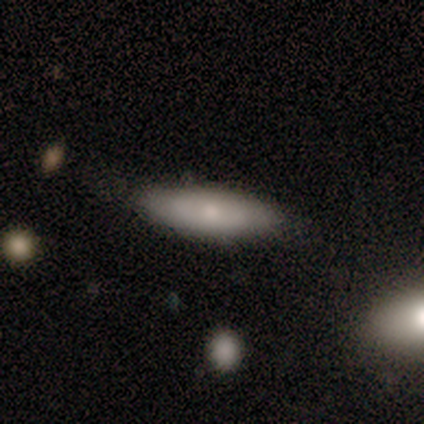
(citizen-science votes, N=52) A smooth galaxy with no disk features (58%) that is cigar-shaped (53%).

Vote fractions:
- Smooth or featured? smooth: 58% / featured or disk: 40% / star or artifact: 2%
- How rounded? cigar-shaped: 53% / in between: 47% / round: 0%
- Merging? none: 76% / minor disturbance: 24% / major disturbance: 0% / merger: 0%